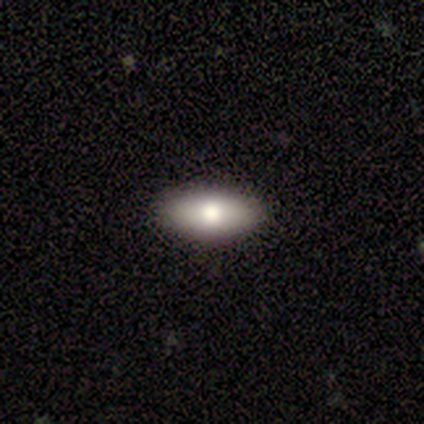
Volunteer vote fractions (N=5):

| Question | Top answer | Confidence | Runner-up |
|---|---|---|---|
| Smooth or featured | smooth | 80% | featured or disk (20%) |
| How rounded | in between | 100% | — |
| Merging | none | 100% | — |